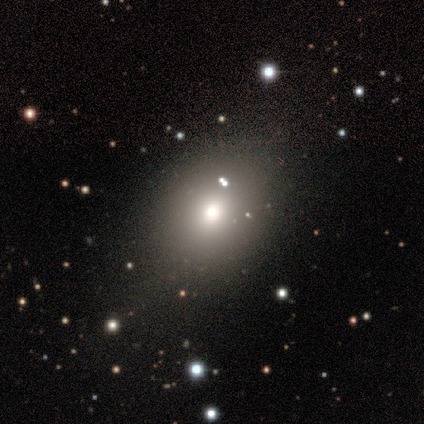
Q: Smooth or featured?
A: smooth (75%); runner-up: featured or disk (25%)
Q: How rounded?
A: in between (67%); runner-up: round (33%)
Q: Merging?
A: none (75%); runner-up: minor disturbance (25%)